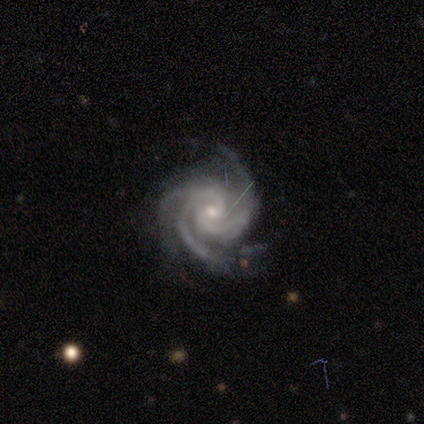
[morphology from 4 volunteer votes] Smooth or featured: featured or disk — 100%
Edge-on disk: no — 100%
Bar: weak — 75% (no — 25%)
Spiral arms: yes — 100%
Spiral winding: tight — 100%
Spiral arm count: 3 — 50% (2 — 25%)
Bulge size: small — 75% (large — 25%)
Merging: none — 75% (minor disturbance — 25%)